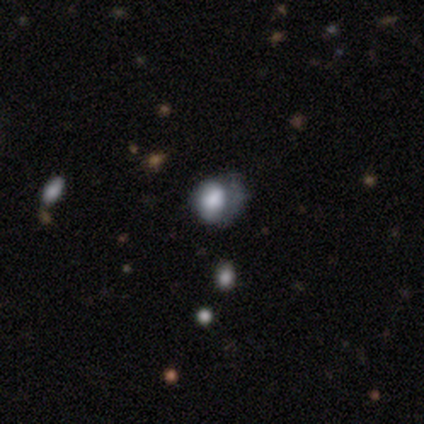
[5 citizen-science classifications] smooth-or-featured: smooth: 100% | featured or disk: 0% | star or artifact: 0%
  how-rounded: round: 60% | in between: 40% | cigar-shaped: 0%
  merging: major disturbance: 60% | none: 20% | minor disturbance: 20% | merger: 0%